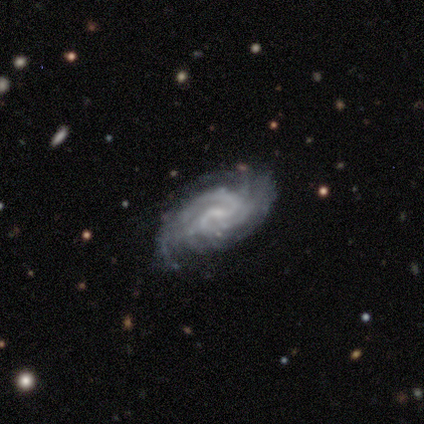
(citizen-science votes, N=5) This appears to be a featured or disk galaxy (80%) with no bar (75%), 2 (25%, tied with 3, 4 and can't tell) tight (50%, tied with medium) spiral arms (100%) and a small central bulge (50%, tied with none). Merging: minor disturbance (75%).